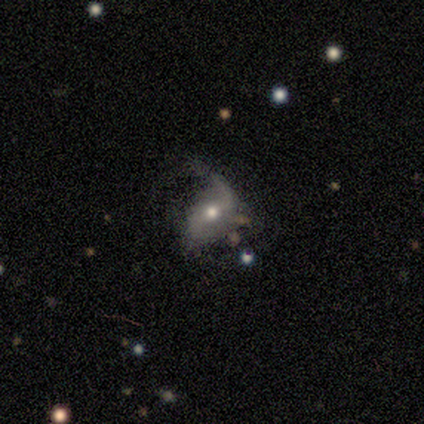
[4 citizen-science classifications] Smooth or featured: featured or disk — 75% (star or artifact — 25%)
Edge-on disk: no — 100%
Bar: strong — 67% (weak — 33%)
Spiral arms: yes — 100%
Spiral winding: loose — 67% (medium — 33%)
Spiral arm count: 2 — 100%
Bulge size: moderate — 100%
Merging: minor disturbance — 67% (major disturbance — 33%)